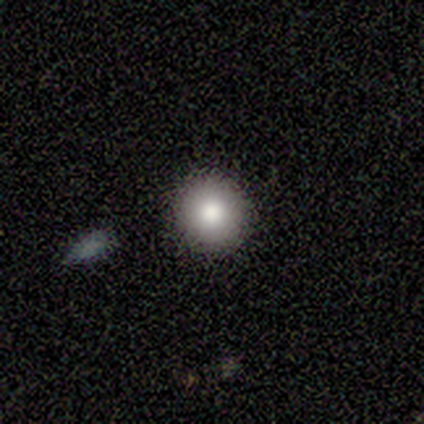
smooth 100%, featured or disk 0%, star or artifact 0%. Down the decision tree: how rounded — round (100%); merging — none (83%).